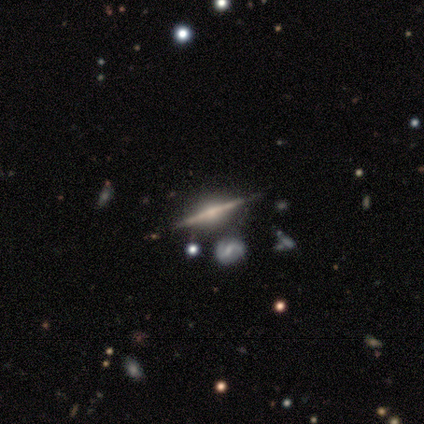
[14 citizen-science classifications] featured or disk 86%, smooth 14%, star or artifact 0%. Down the decision tree: edge-on disk — yes (100%); edge-on bulge — rounded (100%); merging — none (86%).